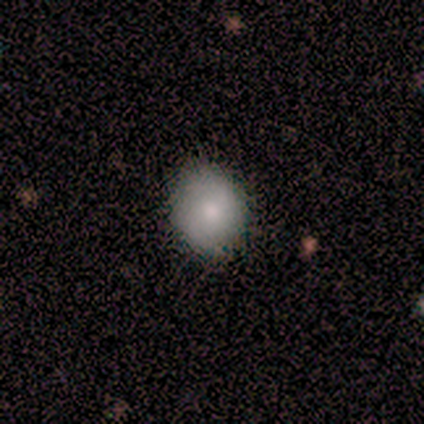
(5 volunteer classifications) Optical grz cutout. It shows a smooth galaxy with no disk features (100%) that is round (60%). Merging: none (100%).